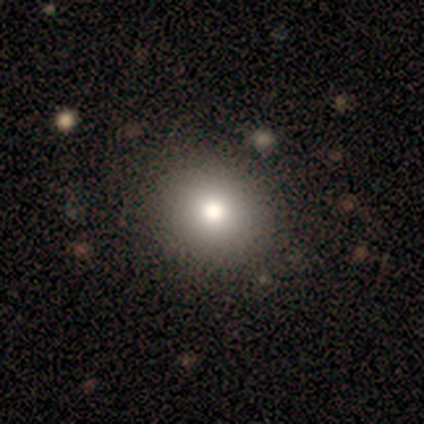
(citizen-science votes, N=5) Q: Smooth or featured?
A: smooth (80%); runner-up: star or artifact (20%)
Q: How rounded?
A: round (75%); runner-up: in between (25%)
Q: Merging?
A: none (75%); runner-up: minor disturbance (25%)